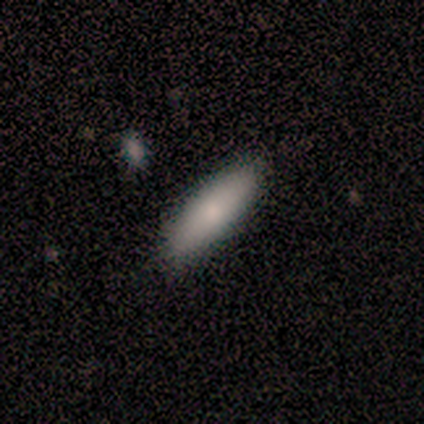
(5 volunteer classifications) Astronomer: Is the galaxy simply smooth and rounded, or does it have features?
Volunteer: smooth — 100%.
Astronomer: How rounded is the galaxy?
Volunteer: in between — 60% (runner-up: cigar-shaped, 40%).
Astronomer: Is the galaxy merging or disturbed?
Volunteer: none — 80%.